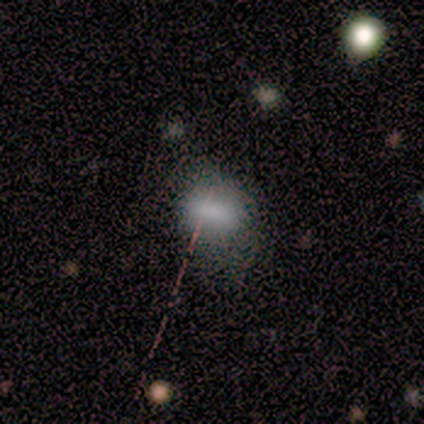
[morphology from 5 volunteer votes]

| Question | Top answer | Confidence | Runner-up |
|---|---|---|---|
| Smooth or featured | smooth | 60% | featured or disk (20%) |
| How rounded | in between | 67% | round (33%) |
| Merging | none | 75% | minor disturbance (25%) |